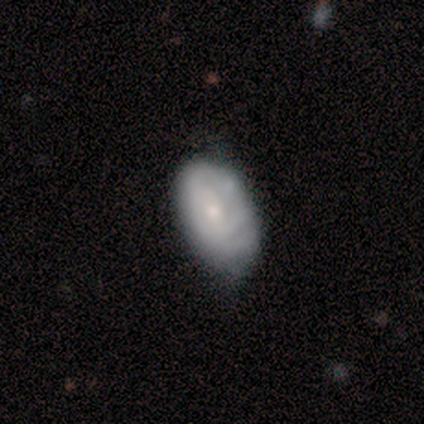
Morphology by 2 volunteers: Smooth or featured?
  - smooth: 50% * (tied)
  - featured or disk: 50% * (tied)
  - star or artifact: 0%
How rounded?
  - in between: 100% *
  - round: 0%
  - cigar-shaped: 0%
Merging?
  - none: 100% *
  - minor disturbance: 0%
  - major disturbance: 0%
  - merger: 0%